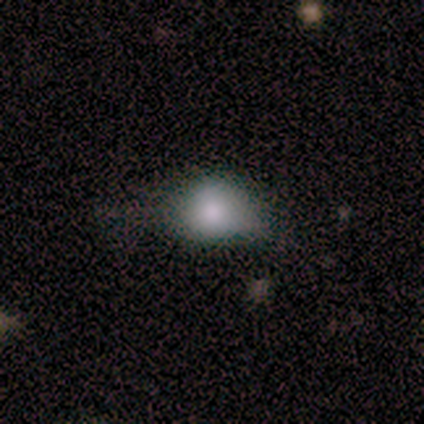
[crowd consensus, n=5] Overall: smooth (100%). How rounded: in between (60%; round 40%). Merging: none (60%; minor disturbance 20%).